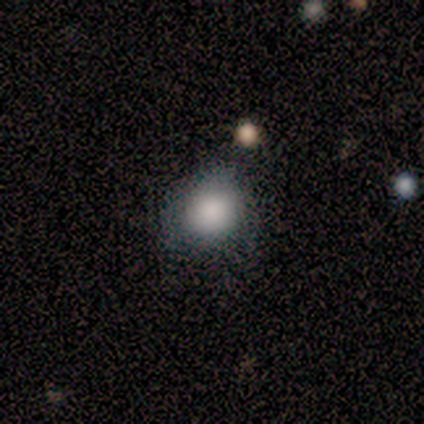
Smooth or featured?
  - smooth: 75% *
  - featured or disk: 12%
  - star or artifact: 12%
How rounded?
  - round: 50% * (tied)
  - in between: 50% * (tied)
  - cigar-shaped: 0%
Merging?
  - none: 71% *
  - minor disturbance: 29%
  - major disturbance: 0%
  - merger: 0%